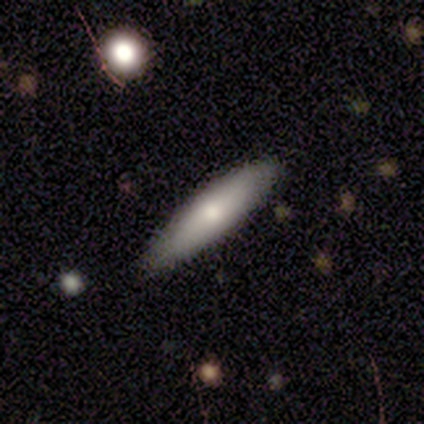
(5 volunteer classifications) A smooth galaxy with no disk features (60%) that is cigar-shaped (100%).

Vote fractions:
- Smooth or featured? smooth: 60% / featured or disk: 40% / star or artifact: 0%
- How rounded? cigar-shaped: 100% / round: 0% / in between: 0%
- Merging? none: 80% / minor disturbance: 20% / major disturbance: 0% / merger: 0%